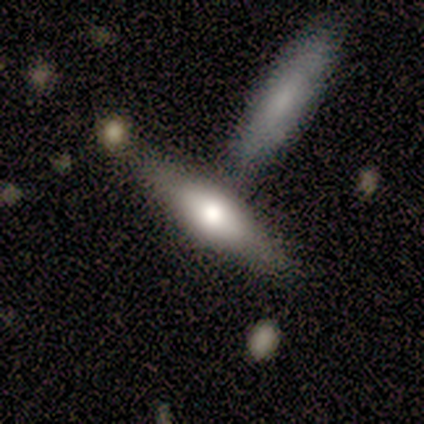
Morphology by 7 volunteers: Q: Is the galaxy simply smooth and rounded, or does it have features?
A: featured or disk — 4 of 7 (57%).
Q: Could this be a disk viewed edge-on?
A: yes — 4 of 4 (100%).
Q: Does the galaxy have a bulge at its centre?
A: rounded — 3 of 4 (75%).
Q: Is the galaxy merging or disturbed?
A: none — 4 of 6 (67%).